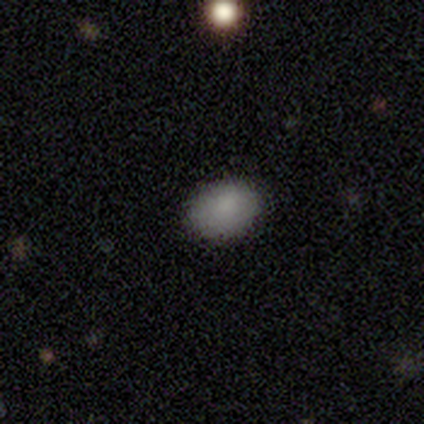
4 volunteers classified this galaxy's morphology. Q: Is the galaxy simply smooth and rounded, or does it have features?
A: smooth — 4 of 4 (100%).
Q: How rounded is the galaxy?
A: round — 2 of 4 (50%, tied with in between).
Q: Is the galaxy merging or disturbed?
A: none — 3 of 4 (75%).